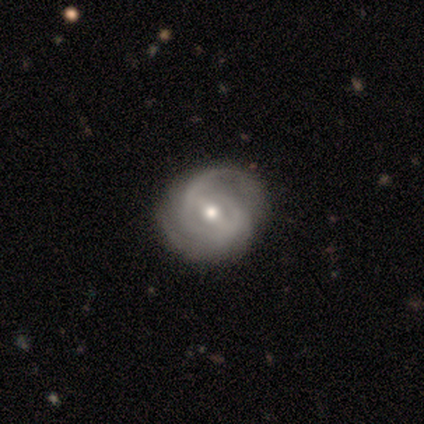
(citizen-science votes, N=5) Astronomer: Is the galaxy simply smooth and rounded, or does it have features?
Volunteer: featured or disk — 100%.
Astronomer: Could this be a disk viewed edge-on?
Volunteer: no — 100%.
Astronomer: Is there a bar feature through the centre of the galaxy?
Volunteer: strong — 40%, tied with weak at 40%.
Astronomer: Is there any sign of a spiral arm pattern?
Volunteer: yes — 100%.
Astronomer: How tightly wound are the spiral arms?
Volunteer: tight — 60% (runner-up: loose, 40%).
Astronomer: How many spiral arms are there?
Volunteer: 2 — 100%.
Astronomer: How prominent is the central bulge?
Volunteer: moderate — 80%.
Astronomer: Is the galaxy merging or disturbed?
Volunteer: none — 40%, tied with minor disturbance at 40%.